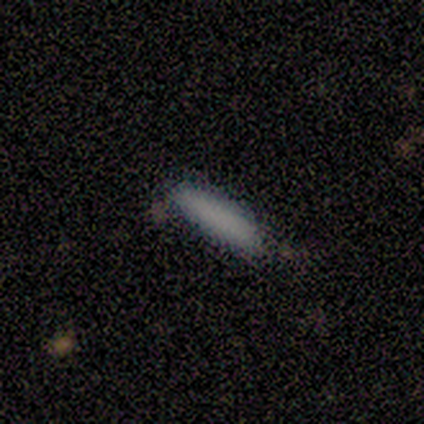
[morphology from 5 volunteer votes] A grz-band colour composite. It shows a smooth galaxy with no disk features (100%) that is cigar-shaped (80%). Merging: none (100%).